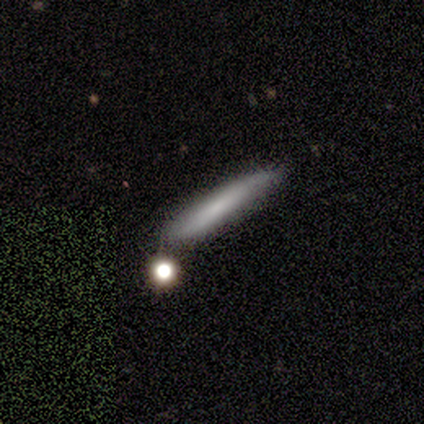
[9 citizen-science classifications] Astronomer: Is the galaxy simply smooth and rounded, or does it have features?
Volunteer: smooth — 44% (runner-up: featured or disk, 33%).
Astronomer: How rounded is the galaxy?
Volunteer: cigar-shaped — 100%.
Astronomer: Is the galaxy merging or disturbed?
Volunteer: none — 86%.